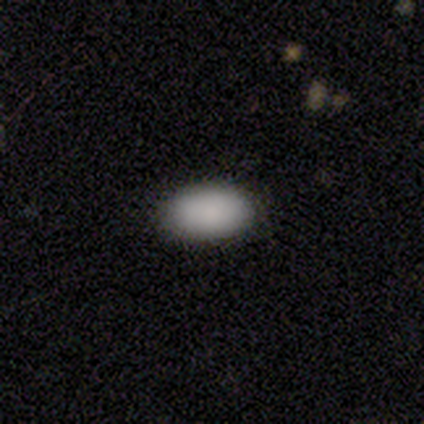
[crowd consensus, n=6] This is clearly a smooth galaxy (83%). How rounded: clearly in between (100%). Merging: clearly none (100%).